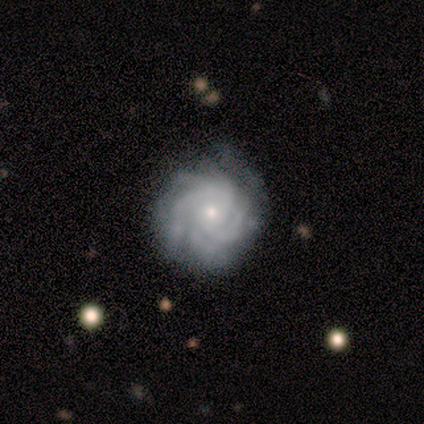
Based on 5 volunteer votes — This is clearly a featured or disk galaxy (100%). It is clearly not viewed edge-on (100%). Bar: likely no (60%). Spiral arm pattern: clearly yes (100%). Spiral arm count: marginally more than 4 (40%). Spiral winding: clearly tight (80%). Central bulge: clearly small (80%). Merging: clearly none (100%).